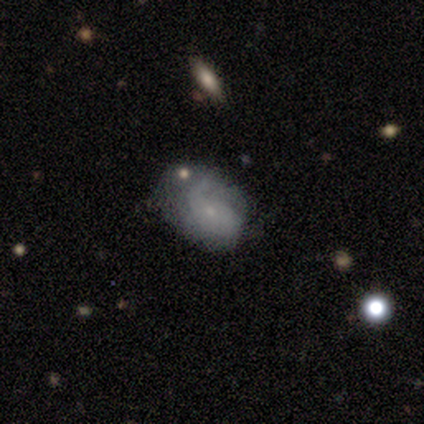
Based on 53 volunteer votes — A featured or disk galaxy (60%) with no bar (90%), 1 (55%) medium (40%) spiral arms (65%) and a small central bulge (87%). Merging: none (47%).